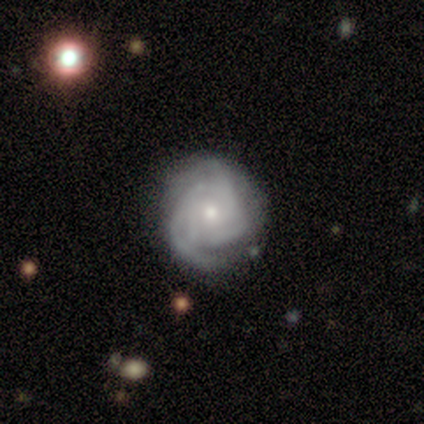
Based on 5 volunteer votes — Smooth or featured? featured or disk (80%)
Edge-on disk? no (100%)
Bar? no (100%)
Spiral arms? yes (100%)
Spiral winding? medium (75%)
Spiral arm count? can't tell (50%)
Bulge size? moderate (50%, tied with small)
Merging? none (80%)